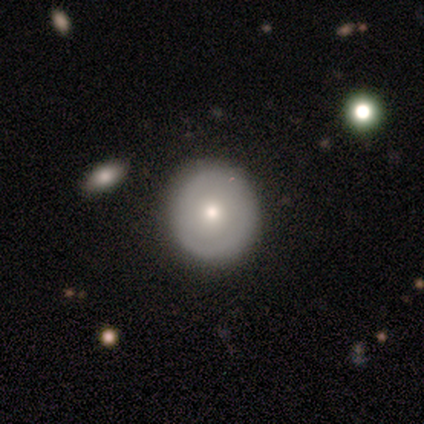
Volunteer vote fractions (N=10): Smooth or featured? smooth (60%)
How rounded? round (83%)
Merging? none (90%)